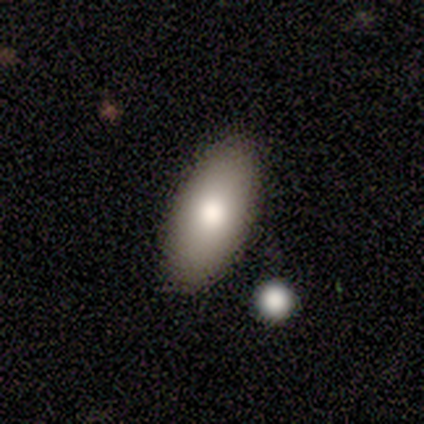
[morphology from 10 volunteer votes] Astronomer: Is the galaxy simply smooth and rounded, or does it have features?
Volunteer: smooth — 60% (runner-up: featured or disk, 40%).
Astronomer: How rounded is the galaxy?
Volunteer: in between — 67%.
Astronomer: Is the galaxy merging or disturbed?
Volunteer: none — 80%.